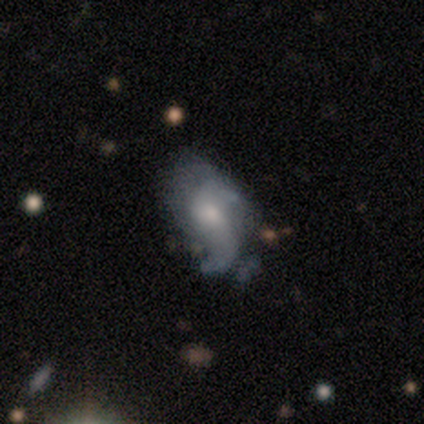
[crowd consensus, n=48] A featured or disk galaxy (62%) with no bar (78%), 2 (45%) loose (65%) spiral arms (74%) and a small central bulge (56%). Merging: none (57%).